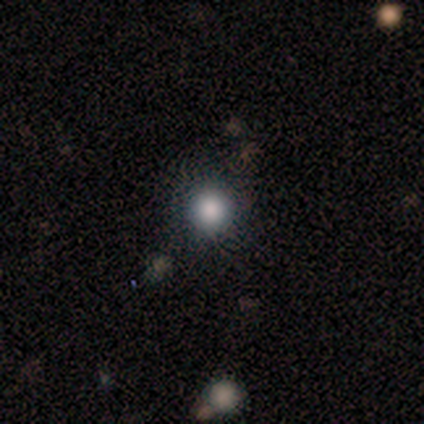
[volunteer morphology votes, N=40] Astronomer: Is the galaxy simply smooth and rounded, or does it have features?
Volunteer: smooth — 72%.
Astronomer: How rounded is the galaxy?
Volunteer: round — 93%.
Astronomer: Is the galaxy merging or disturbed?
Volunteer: none — 87%.